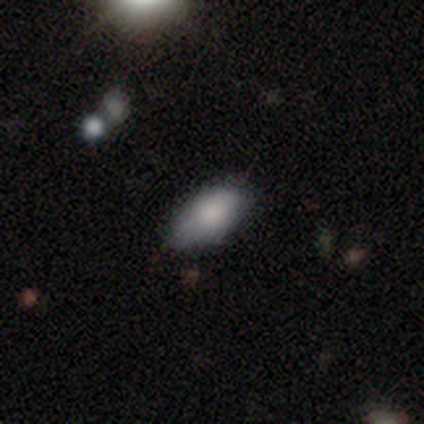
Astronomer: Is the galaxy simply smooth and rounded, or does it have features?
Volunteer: smooth — 100%.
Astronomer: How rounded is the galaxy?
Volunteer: in between — 100%.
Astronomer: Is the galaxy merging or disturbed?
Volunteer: none — 80%.